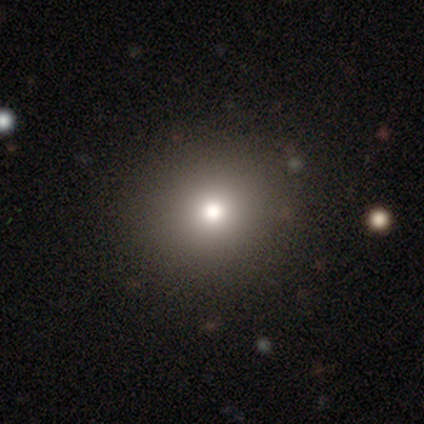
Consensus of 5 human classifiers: Smooth or featured? 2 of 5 (40%, tied with star or artifact) said smooth. How rounded? 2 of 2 (100%) said round. Merging? 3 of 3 (100%) said none.